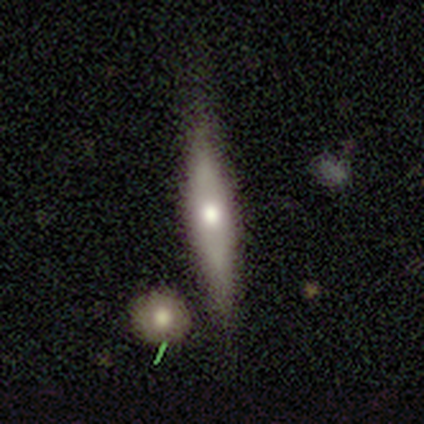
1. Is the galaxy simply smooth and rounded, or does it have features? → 50% smooth (tied), 50% featured or disk (tied), 0% star or artifact.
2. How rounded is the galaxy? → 100% cigar-shaped, 0% round, 0% in between.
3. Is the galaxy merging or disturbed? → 100% none, 0% minor disturbance, 0% major disturbance, 0% merger.